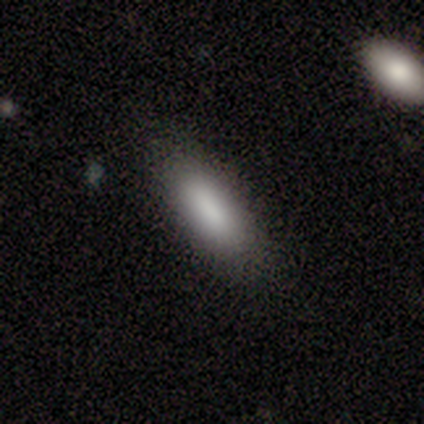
Volunteers were most divided on "how rounded": in between: 60%, cigar-shaped: 40%, round: 0%. More confident: smooth or featured — smooth (100%); merging — none (80%).